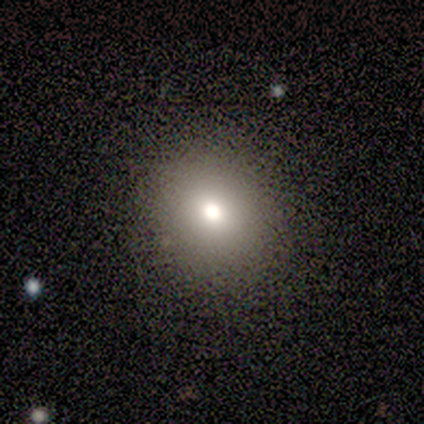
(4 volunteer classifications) A smooth galaxy with no disk features (75%) that is round (100%).

Vote fractions:
- Smooth or featured? smooth: 75% / star or artifact: 25% / featured or disk: 0%
- How rounded? round: 100% / in between: 0% / cigar-shaped: 0%
- Merging? none: 100% / minor disturbance: 0% / major disturbance: 0% / merger: 0%